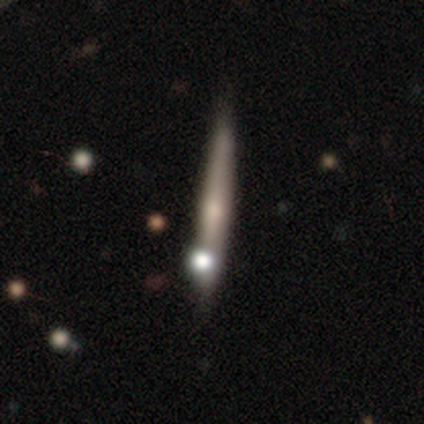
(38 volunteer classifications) Volunteers were most divided on "smooth or featured": featured or disk: 53%, smooth: 39%, star or artifact: 8%. More confident: edge-on disk — yes (100%); merging — none (74%); edge-on bulge — rounded (70%).